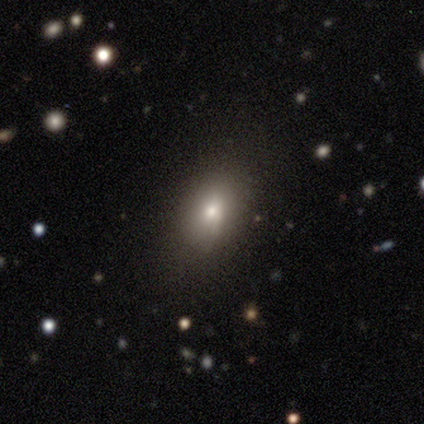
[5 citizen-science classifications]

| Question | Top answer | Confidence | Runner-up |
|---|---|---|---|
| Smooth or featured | smooth | 100% | — |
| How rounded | in between | 80% | round (20%) |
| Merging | none | 80% | minor disturbance (20%) |